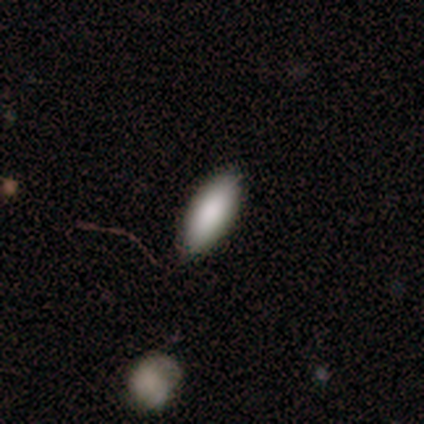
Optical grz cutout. It shows a smooth galaxy with no disk features (100%) that is in between round and cigar-shaped (100%). Merging: none (100%).